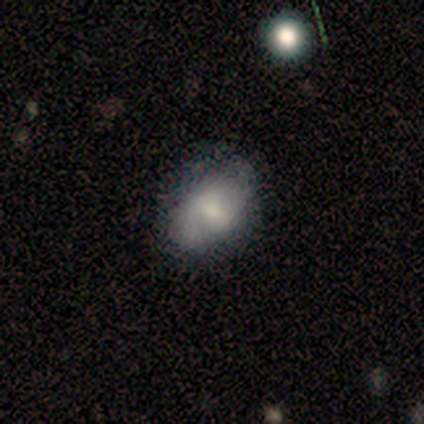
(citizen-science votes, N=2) Overall: smooth (50%, tied with star or artifact). How rounded: in between (100%). Merging: none (100%).